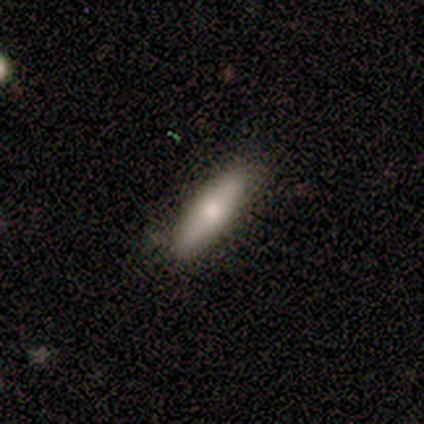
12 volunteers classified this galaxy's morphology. type=smooth (67%); roundness=in between (62%); merging=none (58%).